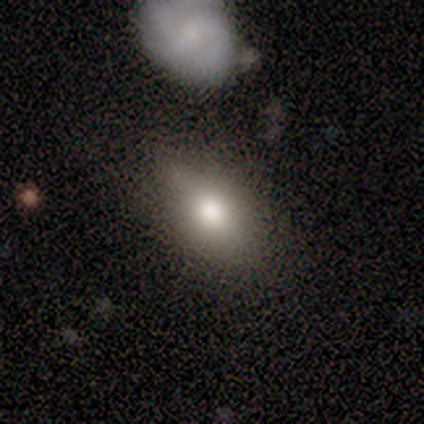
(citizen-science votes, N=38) This appears to be a smooth galaxy with no disk features (66%) that is in between round and cigar-shaped (84%). Merging: none (63%).